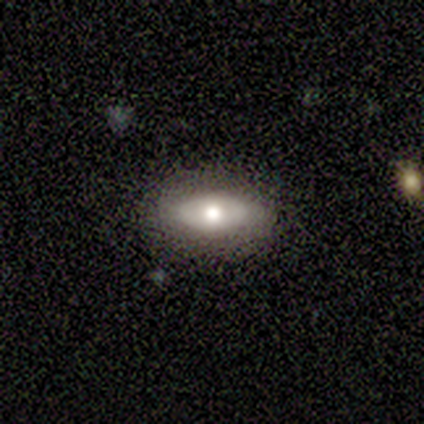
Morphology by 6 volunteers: A smooth galaxy with no disk features (83%) that is in between round and cigar-shaped (100%). Merging: none (67%).